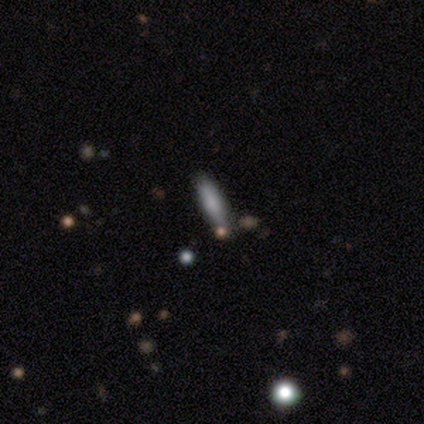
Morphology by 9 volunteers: smooth-or-featured: smooth: 67% | featured or disk: 33% | star or artifact: 0%
  how-rounded: cigar-shaped: 67% | in between: 33% | round: 0%
  merging: none: 89% | minor disturbance: 11% | major disturbance: 0% | merger: 0%